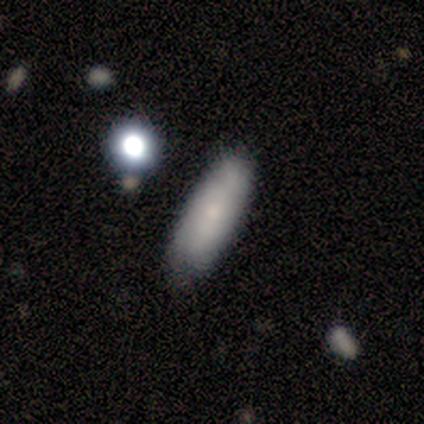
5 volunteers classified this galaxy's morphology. Overall: smooth (60%; featured or disk 40%). How rounded: cigar-shaped (67%; in between 33%). Merging: none (60%; minor disturbance 40%).